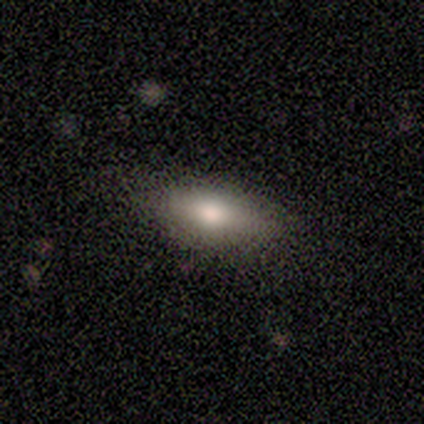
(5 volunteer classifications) This is clearly a smooth galaxy (100%). How rounded: likely in between (60%). Merging: clearly none (100%).